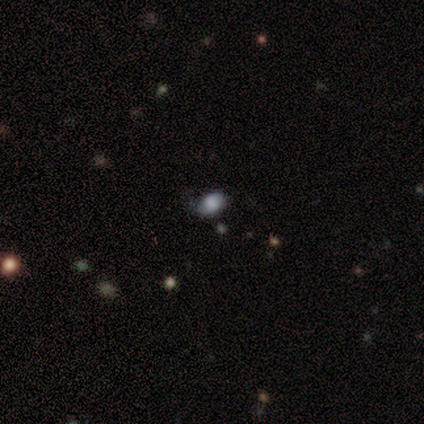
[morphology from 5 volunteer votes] Smooth or featured: featured or disk — 60% (smooth — 20%)
Edge-on disk: no — 100%
Bar: no — 67% (weak — 33%)
Spiral arms: yes — 67% (no — 33%)
Spiral winding: medium — 100%
Spiral arm count: 1 — 50% (tied with 2 — 50%)
Bulge size: dominant — 33% (tied with moderate — 33%; none — 33%)
Merging: none — 75% (minor disturbance — 25%)